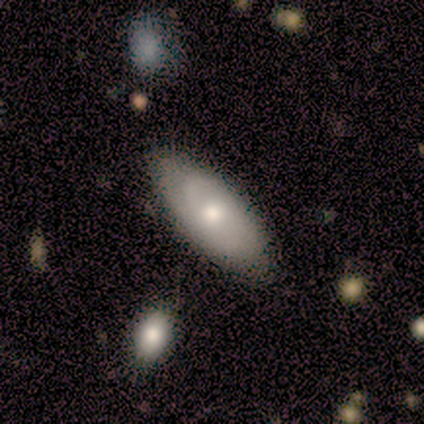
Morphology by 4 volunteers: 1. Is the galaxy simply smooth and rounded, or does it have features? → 75% smooth, 25% featured or disk, 0% star or artifact.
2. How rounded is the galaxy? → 100% in between, 0% round, 0% cigar-shaped.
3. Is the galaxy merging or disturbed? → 75% none, 25% minor disturbance, 0% major disturbance, 0% merger.